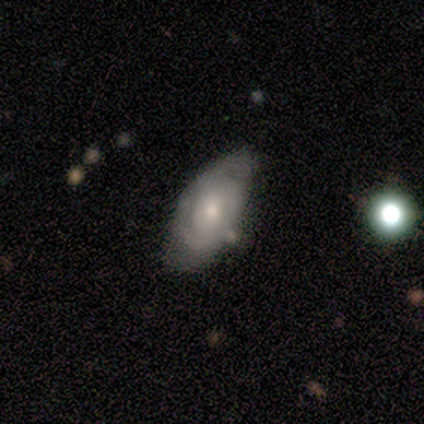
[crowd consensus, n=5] featured or disk 60%, smooth 40%, star or artifact 0%. Down the decision tree: edge-on disk — no (100%); bar — no (100%); spiral arms — yes (100%); spiral arm count — can't tell (67%); spiral winding — tight (67%); bulge size — small (67%); merging — minor disturbance (60%).